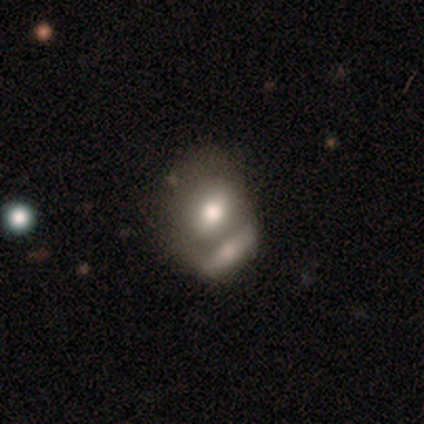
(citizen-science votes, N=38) smooth_or_featured: smooth (p=0.61) [alt: featured or disk p=0.34]
how_rounded: in between (p=0.57) [alt: round p=0.39]
merging: merger (p=0.78) [alt: none p=0.14]